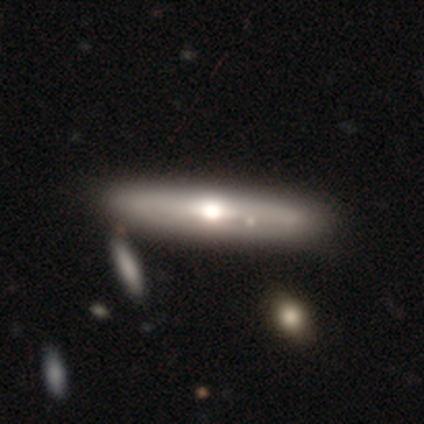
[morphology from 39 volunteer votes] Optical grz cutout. It shows a featured or disk galaxy (62%) viewed edge-on (75%) with a rounded central bulge (94%). Merging: none (62%).